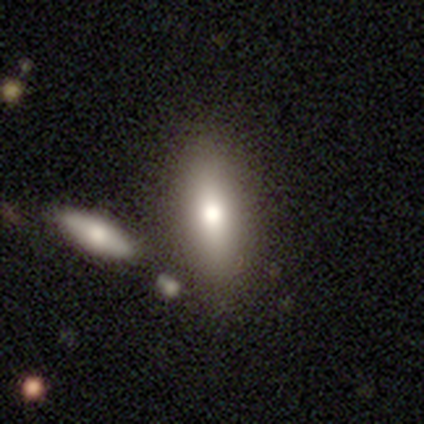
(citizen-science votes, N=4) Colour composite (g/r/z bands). It shows a featured or disk galaxy (75%) with a weak bar (50%, tied with no), no spiral arms (100%) and a moderate central bulge (100%). Merging: none (75%).